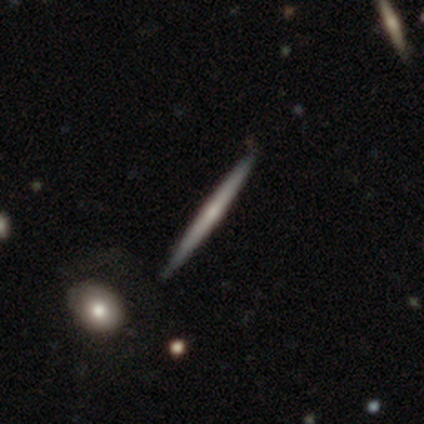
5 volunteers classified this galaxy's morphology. type=smooth (60%); roundness=cigar-shaped (100%); merging=none (100%).